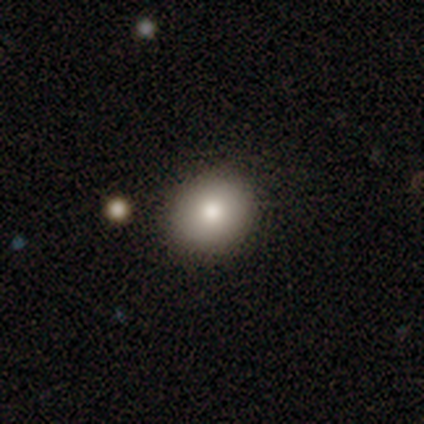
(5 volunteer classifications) A smooth galaxy with no disk features (60%) that is round (67%).

Vote fractions:
- Smooth or featured? smooth: 60% / featured or disk: 20% / star or artifact: 20%
- How rounded? round: 67% / in between: 33% / cigar-shaped: 0%
- Merging? none: 100% / minor disturbance: 0% / major disturbance: 0% / merger: 0%